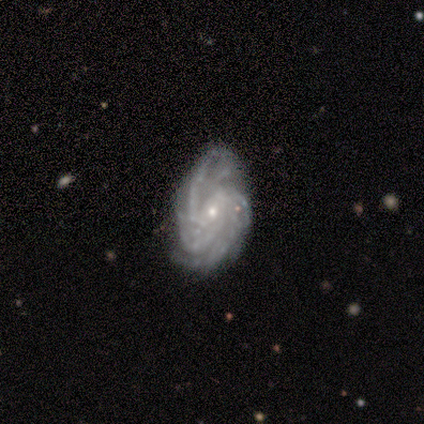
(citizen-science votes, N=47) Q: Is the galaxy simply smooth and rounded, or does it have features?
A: featured or disk — 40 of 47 (85%).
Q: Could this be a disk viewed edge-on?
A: no — 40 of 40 (100%).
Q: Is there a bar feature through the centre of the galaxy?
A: no — 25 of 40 (62%).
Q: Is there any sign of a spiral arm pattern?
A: yes — 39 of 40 (98%).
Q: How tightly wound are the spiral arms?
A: tight — 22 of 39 (56%).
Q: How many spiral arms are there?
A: can't tell — 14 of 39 (36%).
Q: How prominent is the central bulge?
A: small — 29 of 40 (72%).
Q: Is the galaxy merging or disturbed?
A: none — 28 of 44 (64%).